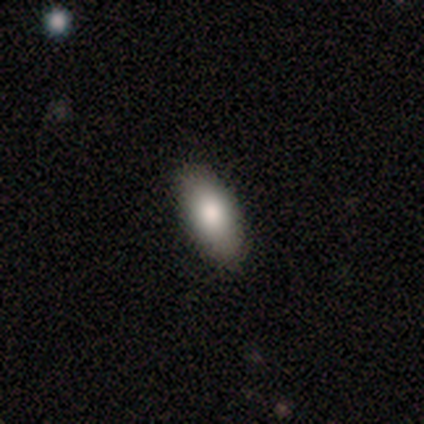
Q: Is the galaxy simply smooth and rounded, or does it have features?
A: smooth — 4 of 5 (80%).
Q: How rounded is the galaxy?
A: in between — 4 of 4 (100%).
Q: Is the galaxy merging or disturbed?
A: none — 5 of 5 (100%).